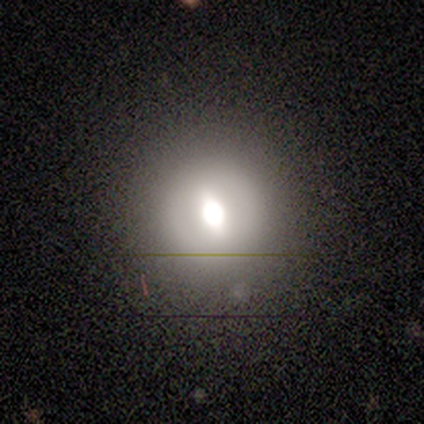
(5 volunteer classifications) smooth-or-featured: smooth: 80% | featured or disk: 20% | star or artifact: 0%
  how-rounded: round: 100% | in between: 0% | cigar-shaped: 0%
  merging: none: 80% | major disturbance: 20% | minor disturbance: 0% | merger: 0%